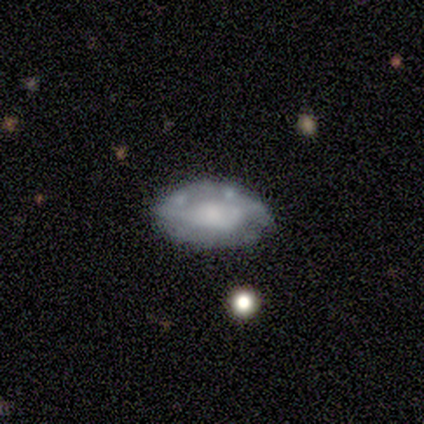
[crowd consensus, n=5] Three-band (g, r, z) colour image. It shows a smooth galaxy with no disk features (60%) that is in between round and cigar-shaped (100%). Merging: none (60%).